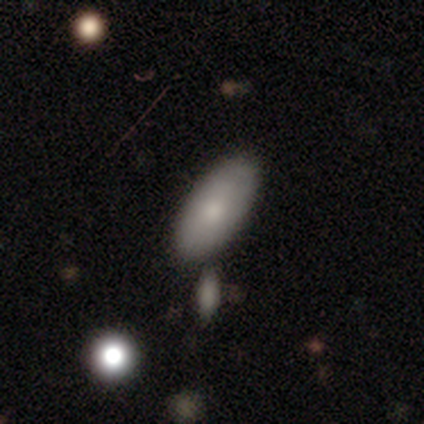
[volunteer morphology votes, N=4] Smooth or featured?
  - smooth: 100% *
  - featured or disk: 0%
  - star or artifact: 0%
How rounded?
  - in between: 100% *
  - round: 0%
  - cigar-shaped: 0%
Merging?
  - none: 50% * (tied)
  - merger: 50% * (tied)
  - minor disturbance: 0%
  - major disturbance: 0%